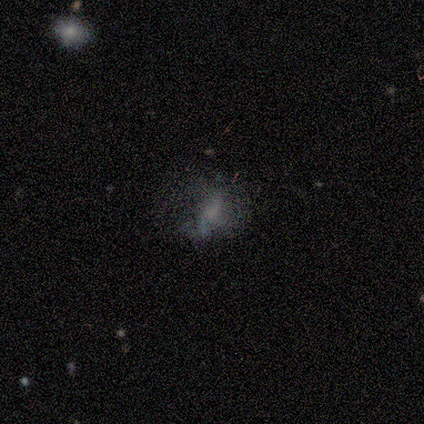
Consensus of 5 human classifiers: Q: Smooth or featured?
A: smooth (60%); runner-up: featured or disk (40%)
Q: How rounded?
A: in between (67%); runner-up: round (33%)
Q: Merging?
A: none (80%); runner-up: major disturbance (20%)